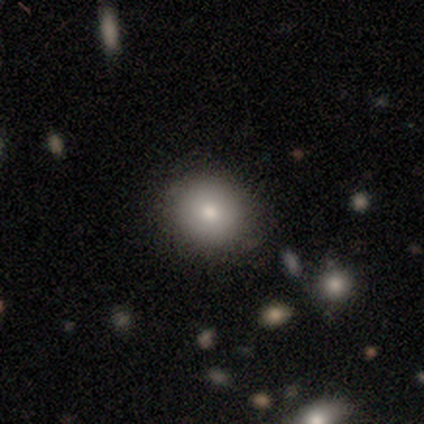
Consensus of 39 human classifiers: A smooth galaxy with no disk features (74%) that is round (72%).

Vote fractions:
- Smooth or featured? smooth: 74% / featured or disk: 18% / star or artifact: 8%
- How rounded? round: 72% / in between: 28% / cigar-shaped: 0%
- Merging? none: 83% / minor disturbance: 11% / major disturbance: 3% / merger: 3%